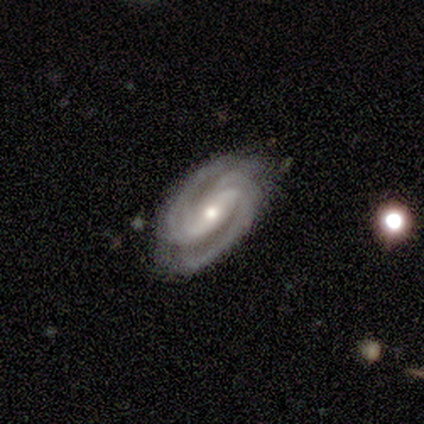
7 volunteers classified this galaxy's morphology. smooth-or-featured: featured or disk: 100% | smooth: 0% | star or artifact: 0%
  disk-edge-on: no: 100% | yes: 0%
    bar: strong: 43% (tied) | weak: 43% (tied) | no: 14%
    has-spiral-arms: yes: 100% | no: 0%
      spiral-winding: tight: 57% | medium: 43% | loose: 0%
      spiral-arm-count: 2: 71% | 3: 14% | can't tell: 14% | 1: 0% | 4: 0% | more than 4: 0%
    bulge-size: small: 57% | moderate: 43% | dominant: 0% | large: 0% | none: 0%
  merging: none: 100% | minor disturbance: 0% | major disturbance: 0% | merger: 0%